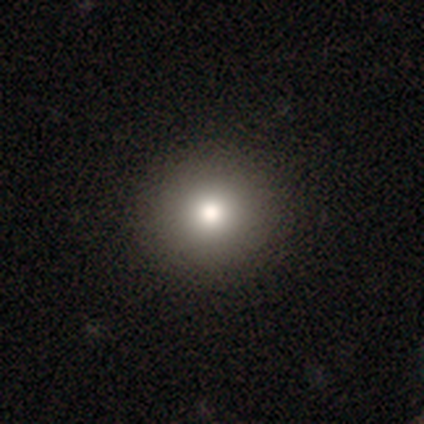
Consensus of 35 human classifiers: smooth_or_featured: smooth (p=0.89) [alt: star or artifact p=0.11]
how_rounded: round (p=1.00)
merging: none (p=0.94) [alt: minor disturbance p=0.03]